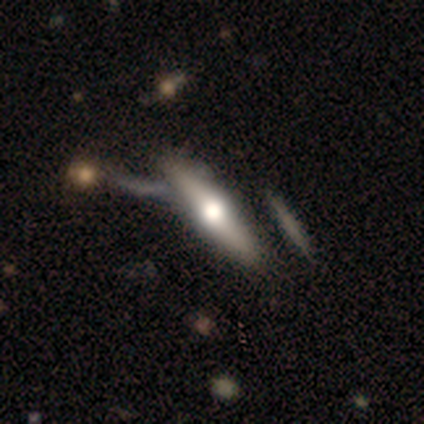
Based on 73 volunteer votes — This appears to be a featured or disk galaxy (74%) viewed edge-on (93%) with a rounded central bulge (94%). Merging: none (61%).